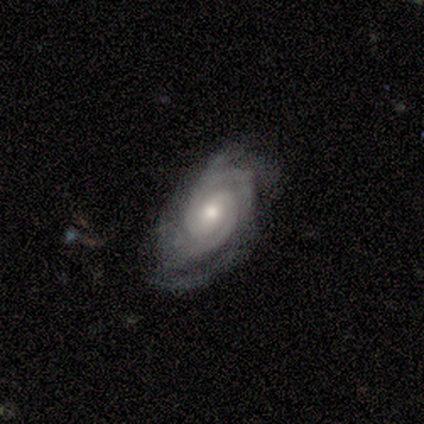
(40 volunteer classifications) A featured or disk galaxy (90%) with no bar (65%), 2 (44%) tight (69%) spiral arms (94%) and a moderate central bulge (59%).

Vote fractions:
- Smooth or featured? featured or disk: 90% / smooth: 8% / star or artifact: 2%
- Edge-on disk? no: 94% / yes: 6%
- Bar? no: 65% / weak: 32% / strong: 3%
- Spiral arms? yes: 94% / no: 6%
- Spiral winding? tight: 69% / medium: 28% / loose: 3%
- Spiral arm count? 2: 44% / 3: 28% / can't tell: 22% / 1: 3% / 4: 3% / more than 4: 0%
- Bulge size? moderate: 59% / small: 29% / large: 9% / none: 3% / dominant: 0%
- Merging? none: 69% / minor disturbance: 15% / major disturbance: 15% / merger: 0%